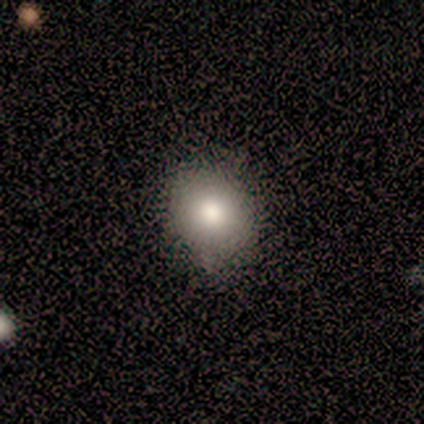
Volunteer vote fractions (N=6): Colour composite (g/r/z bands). It shows a smooth galaxy with no disk features (100%) that is round (67%). Merging: none (83%).